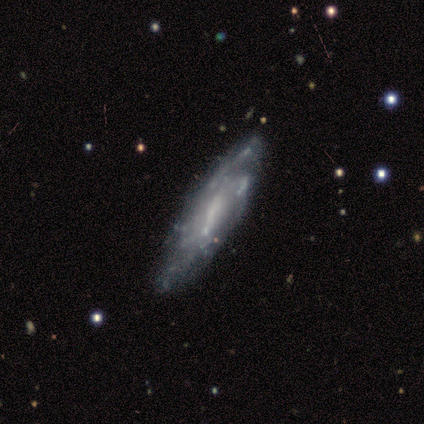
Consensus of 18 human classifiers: Overall: featured or disk (72%). Edge-on disk: no (54%; yes 46%). Bar: strong (43%; weak 29%). Spiral arms: yes (57%; no 43%). Spiral arm count: can't tell (75%). Spiral winding: medium (75%). Bulge size: none (43%; moderate 29%). Merging: minor disturbance (41%; none 18%).